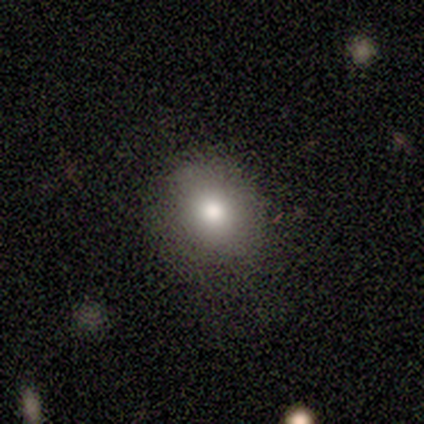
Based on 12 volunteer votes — Smooth or featured: smooth — 83% (featured or disk — 8%)
How rounded: in between — 60% (round — 40%)
Merging: none — 91% (minor disturbance — 9%)